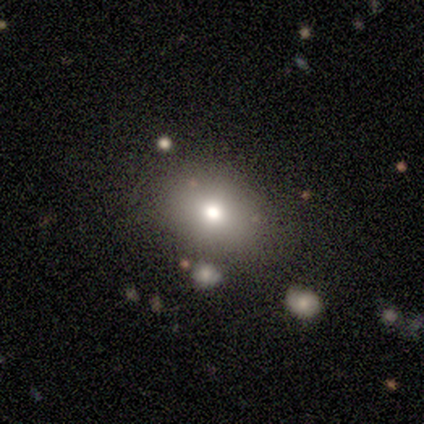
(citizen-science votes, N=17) Smooth or featured: smooth — 65% (featured or disk — 24%)
How rounded: round — 55% (in between — 45%)
Merging: none — 80% (minor disturbance — 13%)